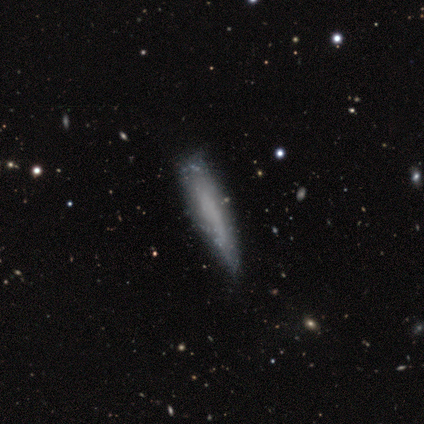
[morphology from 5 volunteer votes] Volunteers were most divided on "smooth or featured": featured or disk: 60%, smooth: 40%, star or artifact: 0%. More confident: bar — no (100%); spiral arms — no (100%); bulge size — none (100%); edge-on disk — no (67%); merging — none (60%).